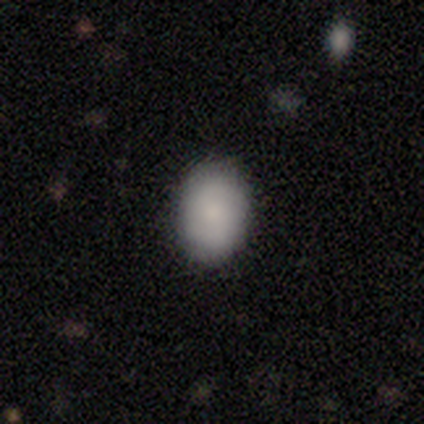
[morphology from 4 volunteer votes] This appears to be a smooth galaxy with no disk features (100%) that is in between round and cigar-shaped (100%). Merging: none (75%).